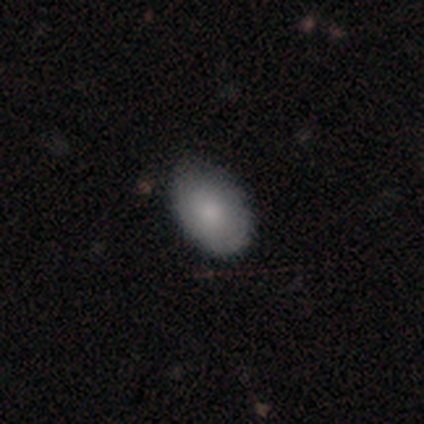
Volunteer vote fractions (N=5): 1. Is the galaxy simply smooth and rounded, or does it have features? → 100% smooth, 0% featured or disk, 0% star or artifact.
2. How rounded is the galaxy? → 80% in between, 20% round, 0% cigar-shaped.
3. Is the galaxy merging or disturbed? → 100% none, 0% minor disturbance, 0% major disturbance, 0% merger.